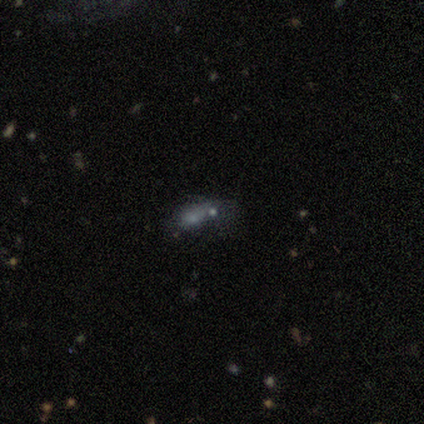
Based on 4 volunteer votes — Smooth or featured: smooth — 50% (featured or disk — 25%)
How rounded: in between — 50% (tied with cigar-shaped — 50%)
Merging: none — 33% (tied with minor disturbance — 33%; merger — 33%)